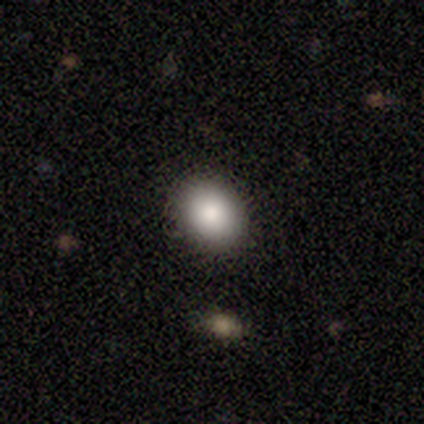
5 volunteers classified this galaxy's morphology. smooth_or_featured: smooth (p=1.00)
how_rounded: in between (p=0.80) [alt: round p=0.20]
merging: none (p=0.80) [alt: minor disturbance p=0.20]